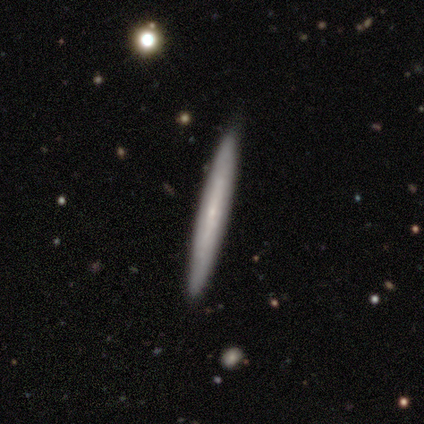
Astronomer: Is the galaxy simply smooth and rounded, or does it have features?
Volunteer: featured or disk — 60%.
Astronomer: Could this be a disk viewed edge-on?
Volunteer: yes — 67%.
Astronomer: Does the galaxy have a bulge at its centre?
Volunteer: none — 100%.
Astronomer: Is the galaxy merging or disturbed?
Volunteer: none — 89%.